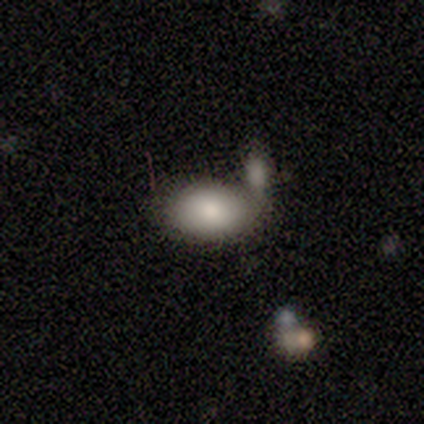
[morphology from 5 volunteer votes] A star or artifact, not a galaxy (60%).